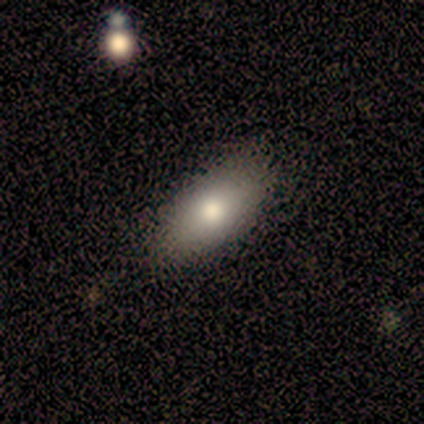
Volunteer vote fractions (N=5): Overall: smooth (80%). How rounded: in between (75%). Merging: none (100%).